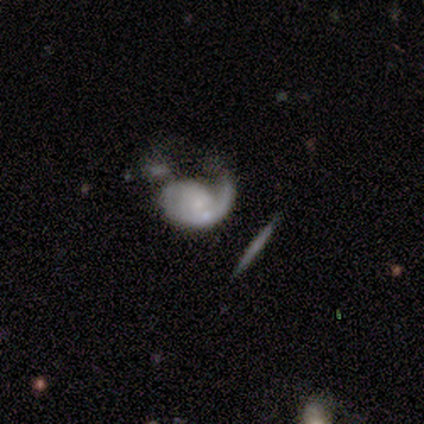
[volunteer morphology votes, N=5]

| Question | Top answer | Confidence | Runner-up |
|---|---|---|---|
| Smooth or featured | featured or disk | 100% | — |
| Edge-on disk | no | 100% | — |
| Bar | no | 100% | — |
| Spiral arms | yes | 80% | no (20%) |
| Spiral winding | tight | 50% | tied: medium (50%) |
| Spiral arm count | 1 | 75% | can't tell (25%) |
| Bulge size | small | 80% | none (20%) |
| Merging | merger | 60% | minor disturbance (20%) |